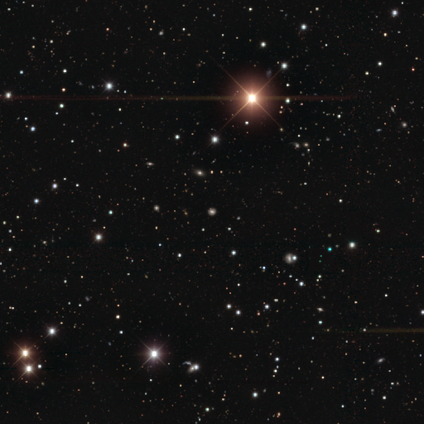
Consensus on every question: smooth or featured — star or artifact (100%).